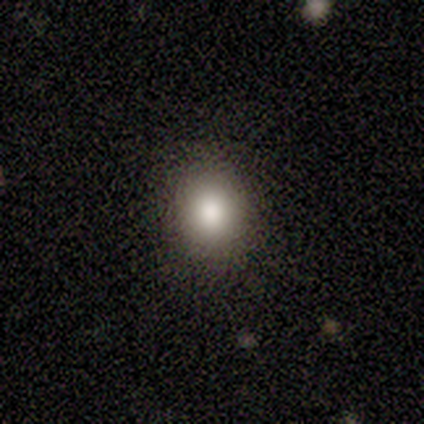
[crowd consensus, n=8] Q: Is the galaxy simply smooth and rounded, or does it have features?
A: smooth — 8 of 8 (100%).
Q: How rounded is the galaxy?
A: round — 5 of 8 (62%).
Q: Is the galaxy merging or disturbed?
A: none — 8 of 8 (100%).